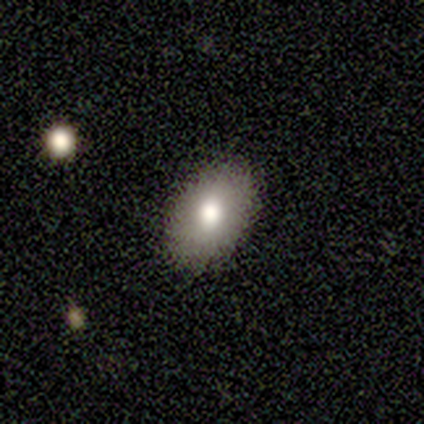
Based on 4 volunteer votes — smooth_or_featured: smooth (p=1.00)
how_rounded: in between (p=0.75) [alt: round p=0.25]
merging: none (p=1.00)